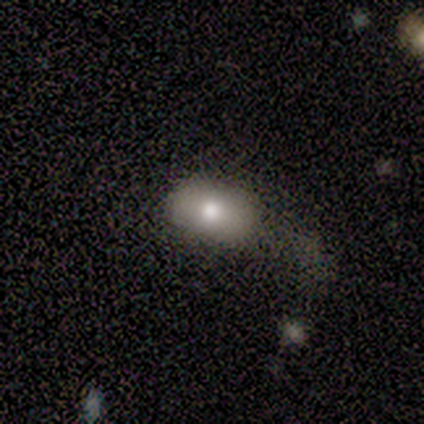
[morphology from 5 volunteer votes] This appears to be a smooth galaxy with no disk features (40%, tied with featured or disk) that is in between round and cigar-shaped (100%). Merging: none (100%).